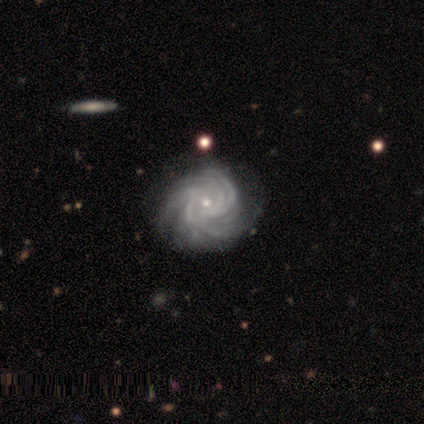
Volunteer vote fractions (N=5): A featured or disk galaxy (100%) with no bar (60%), 4 (60%) tight (100%) spiral arms (100%) and a small central bulge (60%).

Vote fractions:
- Smooth or featured? featured or disk: 100% / smooth: 0% / star or artifact: 0%
- Edge-on disk? no: 100% / yes: 0%
- Bar? no: 60% / strong: 20% / weak: 20%
- Spiral arms? yes: 100% / no: 0%
- Spiral winding? tight: 100% / medium: 0% / loose: 0%
- Spiral arm count? 4: 60% / 3: 20% / more than 4: 20% / 1: 0% / 2: 0% / can't tell: 0%
- Bulge size? small: 60% / moderate: 40% / dominant: 0% / large: 0% / none: 0%
- Merging? none: 80% / minor disturbance: 20% / major disturbance: 0% / merger: 0%